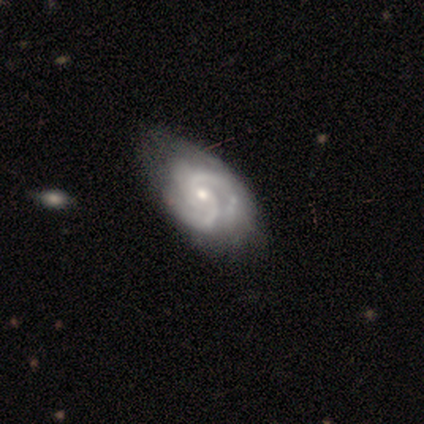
Morphology: type=featured or disk (100%); edge-on=no (100%); bar=no (75%); spiral arms=yes (100%); winding=tight (50%, tied with medium); arm count=2 (75%); bulge=moderate (50%, tied with small); merging=none (50%, tied with minor disturbance).